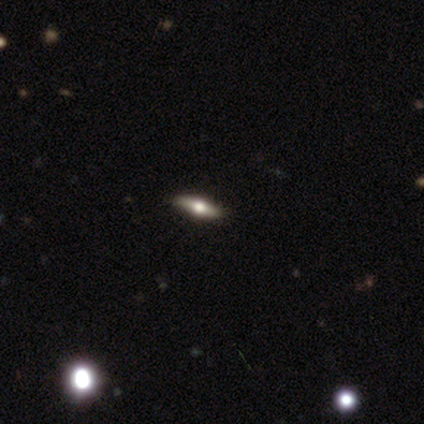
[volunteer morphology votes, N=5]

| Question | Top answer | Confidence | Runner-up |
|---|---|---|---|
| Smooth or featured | featured or disk | 60% | smooth (40%) |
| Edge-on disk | yes | 100% | — |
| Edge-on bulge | rounded | 100% | — |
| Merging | none | 80% | minor disturbance (20%) |